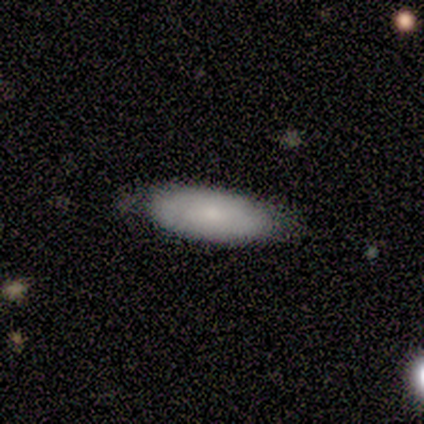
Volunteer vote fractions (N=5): Smooth or featured? 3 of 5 (60%) said smooth. How rounded? 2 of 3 (67%) said in between. Merging? 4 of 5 (80%) said none.